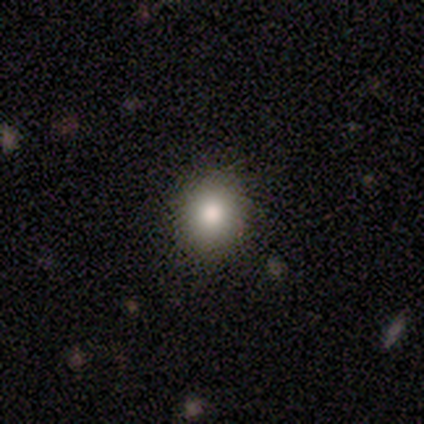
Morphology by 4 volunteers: A smooth galaxy with no disk features (50%, tied with star or artifact) that is round (100%).

Vote fractions:
- Smooth or featured? smooth: 50% (tied) / star or artifact: 50% (tied) / featured or disk: 0%
- How rounded? round: 100% / in between: 0% / cigar-shaped: 0%
- Merging? none: 100% / minor disturbance: 0% / major disturbance: 0% / merger: 0%